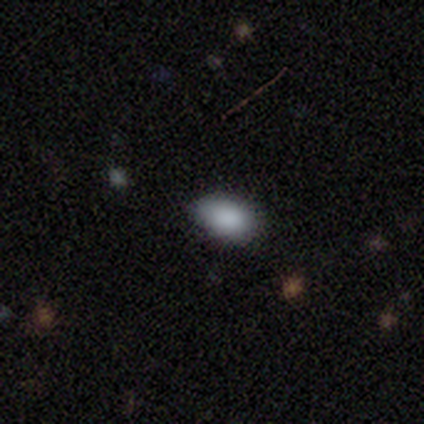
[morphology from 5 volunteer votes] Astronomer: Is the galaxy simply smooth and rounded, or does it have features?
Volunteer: smooth — 100%.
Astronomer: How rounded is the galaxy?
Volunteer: in between — 100%.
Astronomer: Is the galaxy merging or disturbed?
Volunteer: none — 80%.